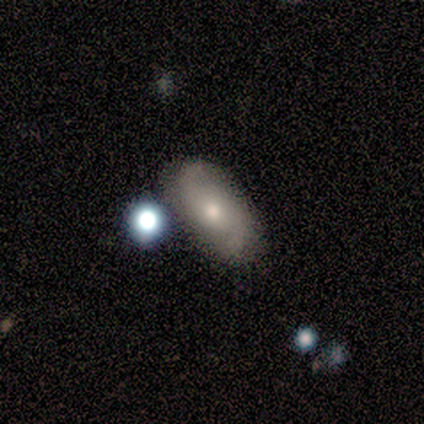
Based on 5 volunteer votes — smooth 40% (tied), featured or disk 40% (tied), star or artifact 20%. Down the decision tree: how rounded — in between (100%); merging — none (100%).